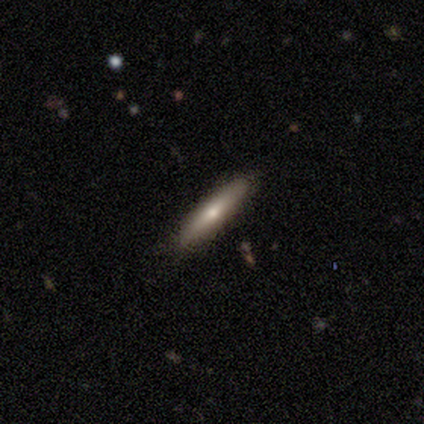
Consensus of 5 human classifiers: Morphology: type=smooth (80%); roundness=cigar-shaped (100%); merging=none (80%).